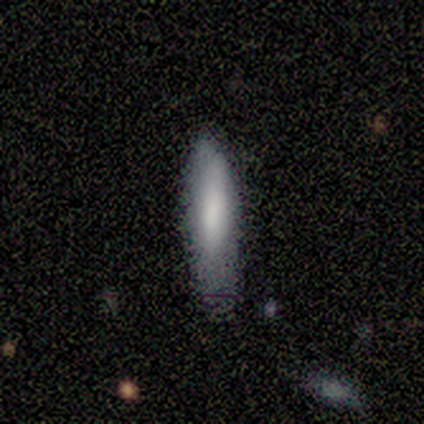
smooth-or-featured: smooth: 100% | featured or disk: 0% | star or artifact: 0%
  how-rounded: cigar-shaped: 100% | round: 0% | in between: 0%
  merging: none: 80% | minor disturbance: 20% | major disturbance: 0% | merger: 0%